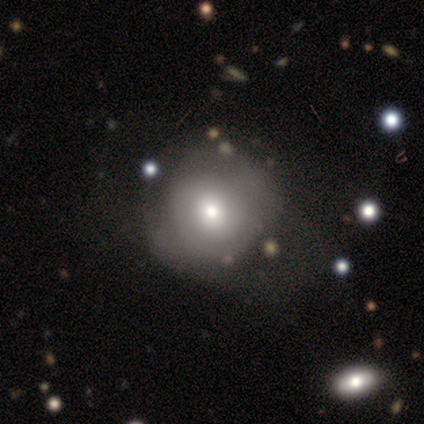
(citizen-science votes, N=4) Overall: star or artifact (50%; smooth 25%).